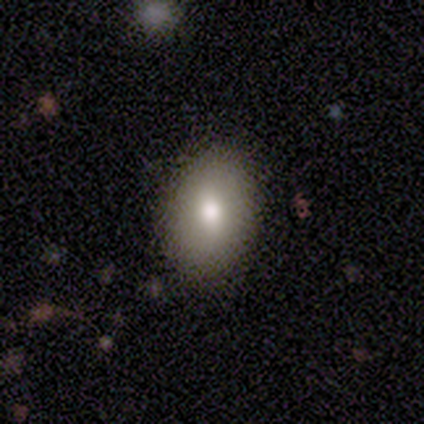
A smooth galaxy with no disk features (75%) that is in between round and cigar-shaped (67%). Merging: none (67%).